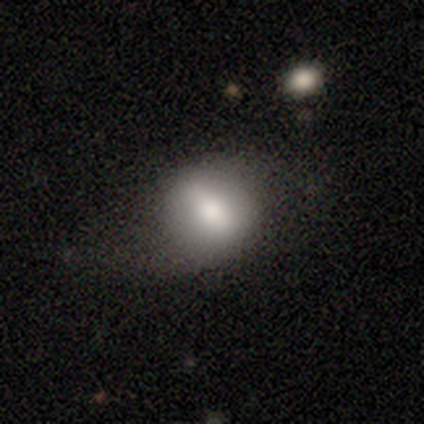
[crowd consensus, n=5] Volunteers were most divided on "merging": none: 50%, minor disturbance: 25%, major disturbance: 25%, merger: 0%. More confident: how rounded — round (100%); smooth or featured — smooth (60%).